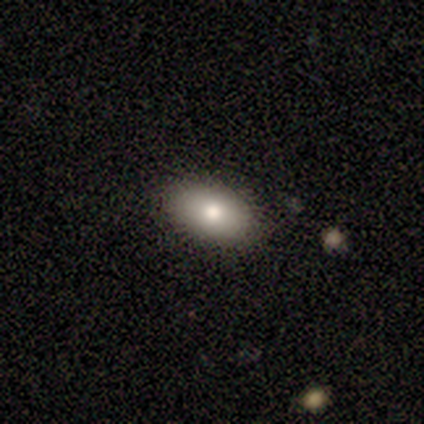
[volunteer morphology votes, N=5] Q: Smooth or featured?
A: smooth (80%); runner-up: featured or disk (20%)
Q: How rounded?
A: in between (75%); runner-up: round (25%)
Q: Merging?
A: none (100%)